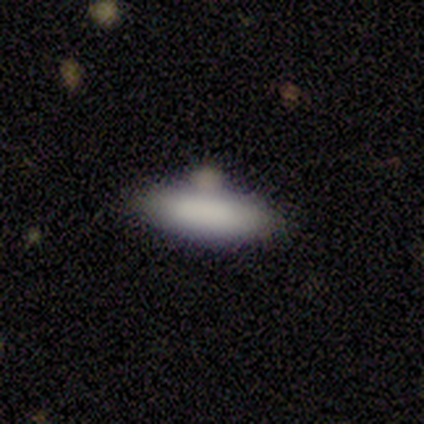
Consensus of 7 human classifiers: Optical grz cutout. It shows a smooth galaxy with no disk features (100%) that is in between round and cigar-shaped (86%). Merging: none (57%).